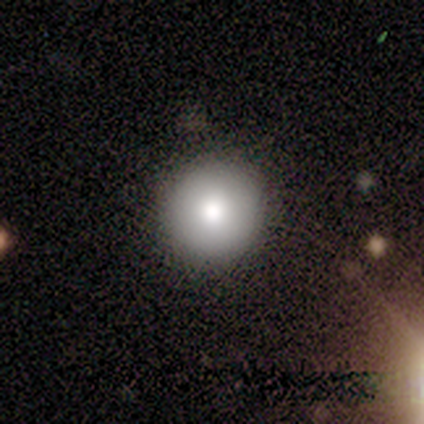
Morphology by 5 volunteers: A smooth galaxy with no disk features (60%) that is round (67%). Merging: none (100%).